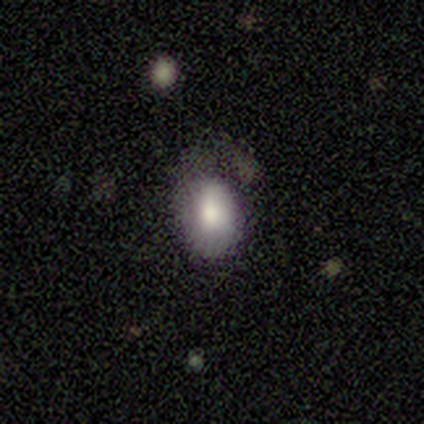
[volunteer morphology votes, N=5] Smooth or featured?
  - smooth: 100% *
  - featured or disk: 0%
  - star or artifact: 0%
How rounded?
  - in between: 100% *
  - round: 0%
  - cigar-shaped: 0%
Merging?
  - none: 40% * (tied)
  - major disturbance: 40% * (tied)
  - minor disturbance: 20%
  - merger: 0%